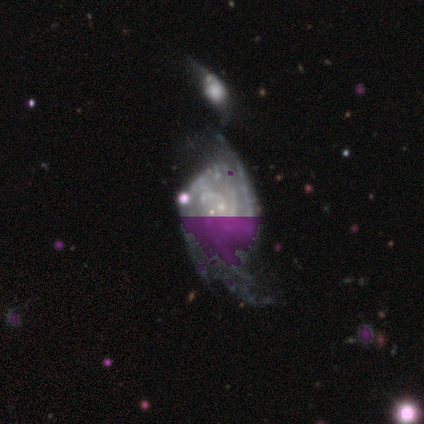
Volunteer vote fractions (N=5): smooth_or_featured: featured or disk (p=0.60) [alt: star or artifact p=0.40]
disk_edge_on: no (p=1.00)
bar: no (p=1.00)
has_spiral_arms: yes (p=0.67) [alt: no p=0.33]
spiral_winding: tight (p=0.50) [tied with: loose p=0.50]
spiral_arm_count: 2 (p=0.50) [tied with: can't tell p=0.50]
bulge_size: small (p=0.67) [alt: none p=0.33]
merging: minor disturbance (p=0.33) [tied with: major disturbance p=0.33, merger p=0.33]